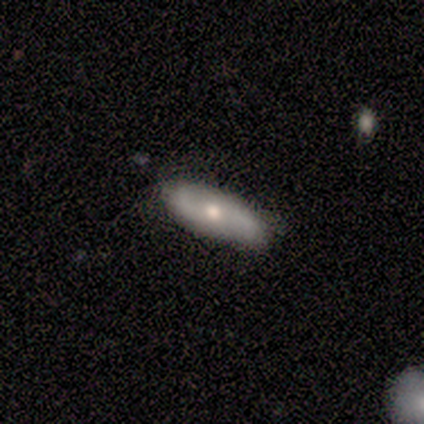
Smooth or featured?
  - smooth: 75% *
  - featured or disk: 25%
  - star or artifact: 0%
How rounded?
  - in between: 100% *
  - round: 0%
  - cigar-shaped: 0%
Merging?
  - none: 75% *
  - minor disturbance: 25%
  - major disturbance: 0%
  - merger: 0%